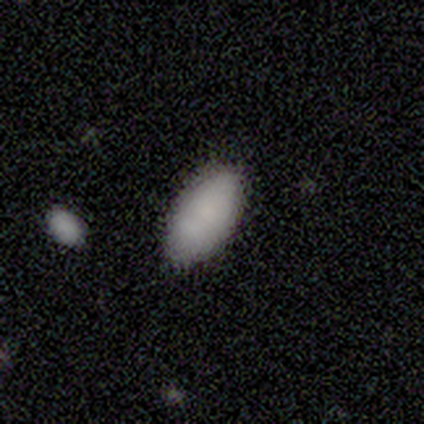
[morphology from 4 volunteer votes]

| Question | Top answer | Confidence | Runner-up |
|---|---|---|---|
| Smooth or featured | smooth | 75% | featured or disk (25%) |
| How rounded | in between | 100% | — |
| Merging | none | 50% | minor disturbance (25%) |